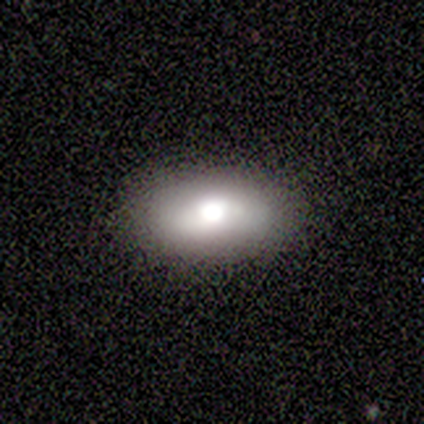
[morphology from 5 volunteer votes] Volunteers were most divided on "smooth or featured": smooth: 80%, featured or disk: 20%, star or artifact: 0%. More confident: how rounded — in between (100%); merging — none (80%).